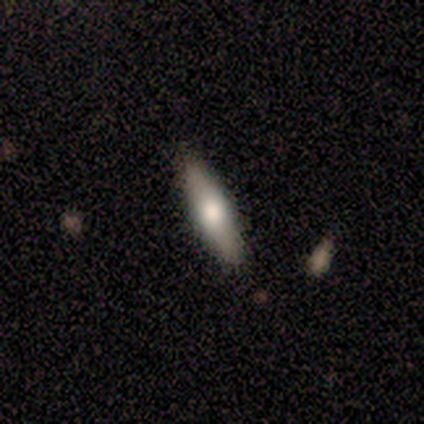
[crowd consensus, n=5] This appears to be a smooth galaxy with no disk features (60%) that is in between round and cigar-shaped (67%). Merging: none (80%).